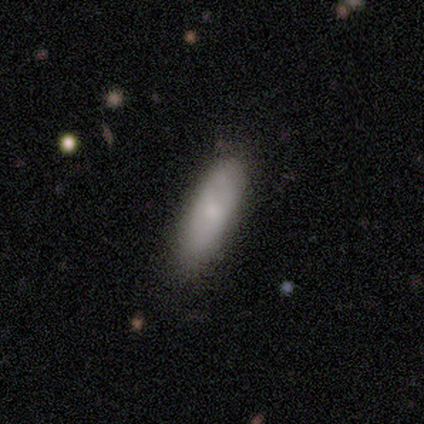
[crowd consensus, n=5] A smooth galaxy with no disk features (60%) that is in between round and cigar-shaped (67%). Merging: minor disturbance (60%).